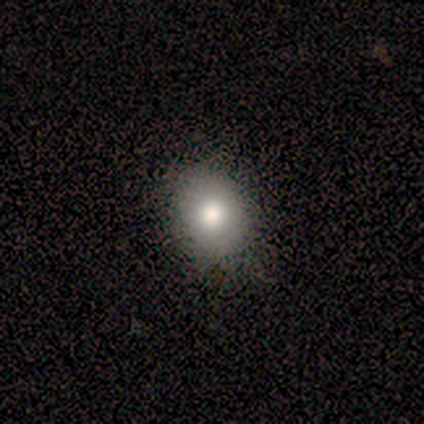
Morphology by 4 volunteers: This is likely a smooth galaxy (75%). How rounded: likely in between (67%). Merging: clearly none (100%).